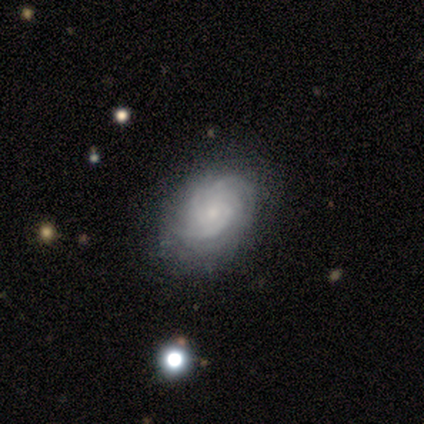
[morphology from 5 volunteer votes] Volunteers were most divided on "spiral winding" (3-way tie): tight: 33%, medium: 33%, loose: 33%; "spiral arm count" (3-way tie): 2: 33%, 3: 33%, can't tell: 33%, 1: 0%, 4: 0%, more than 4: 0%; "merging" (2-way tie): none: 50%, minor disturbance: 50%, major disturbance: 0%, merger: 0%. More confident: edge-on disk — no (100%); spiral arms — yes (100%); bulge size — small (100%); bar — no (67%); smooth or featured — featured or disk (60%).